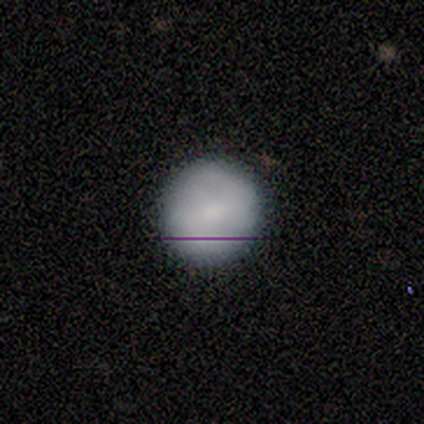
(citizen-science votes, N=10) This is likely a smooth galaxy (60%). How rounded: clearly round (100%). Merging: clearly none (100%).